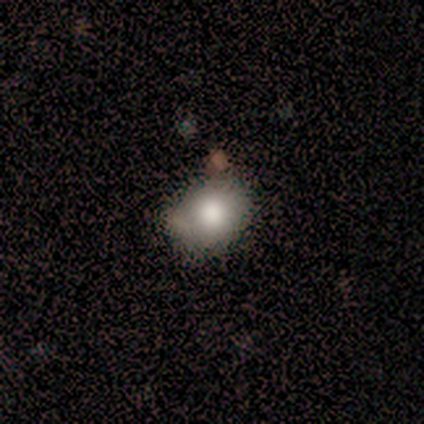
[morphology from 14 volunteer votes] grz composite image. It shows a smooth galaxy with no disk features (57%) that is round (62%). Merging: none (62%).